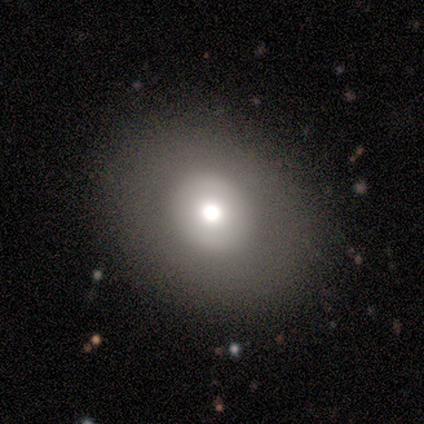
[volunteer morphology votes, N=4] smooth 50%, featured or disk 25%, star or artifact 25%. Down the decision tree: how rounded — round (100%); merging — none (100%).